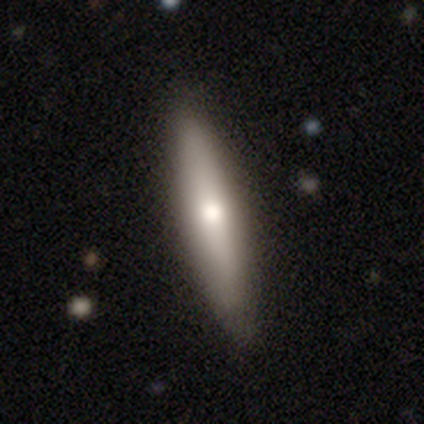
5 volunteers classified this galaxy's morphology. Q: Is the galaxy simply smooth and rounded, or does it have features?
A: featured or disk — 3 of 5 (60%).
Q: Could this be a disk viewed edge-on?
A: yes — 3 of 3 (100%).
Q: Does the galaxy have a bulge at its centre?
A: rounded — 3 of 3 (100%).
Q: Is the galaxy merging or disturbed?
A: none — 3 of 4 (75%).